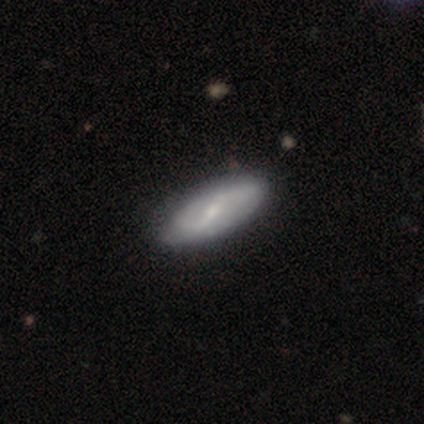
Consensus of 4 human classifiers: A smooth galaxy with no disk features (50%) that is in between round and cigar-shaped (50%, tied with cigar-shaped).

Vote fractions:
- Smooth or featured? smooth: 50% / featured or disk: 25% / star or artifact: 25%
- How rounded? in between: 50% (tied) / cigar-shaped: 50% (tied) / round: 0%
- Merging? none: 100% / minor disturbance: 0% / major disturbance: 0% / merger: 0%